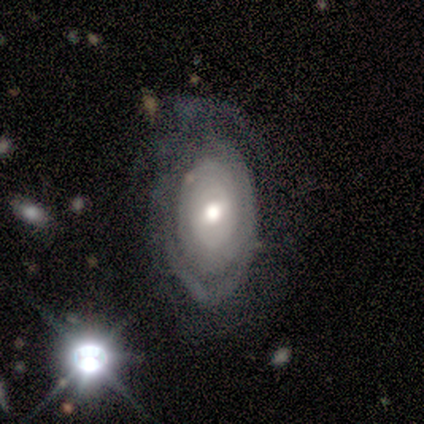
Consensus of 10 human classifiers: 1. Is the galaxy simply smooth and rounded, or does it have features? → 90% featured or disk, 10% smooth, 0% star or artifact.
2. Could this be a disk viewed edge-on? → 100% no, 0% yes.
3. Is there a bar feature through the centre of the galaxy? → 56% weak, 33% no, 11% strong.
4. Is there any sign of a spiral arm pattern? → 56% yes, 44% no.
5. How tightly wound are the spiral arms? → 80% tight, 20% medium, 0% loose.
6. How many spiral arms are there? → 100% can't tell, 0% 1, 0% 2, 0% 3, 0% 4, 0% more than 4.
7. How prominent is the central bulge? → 67% moderate, 22% large, 11% small, 0% dominant, 0% none.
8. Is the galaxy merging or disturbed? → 60% none, 30% major disturbance, 10% minor disturbance, 0% merger.